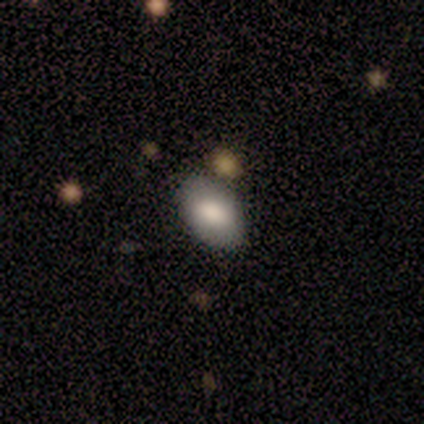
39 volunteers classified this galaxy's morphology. Smooth or featured? 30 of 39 (77%) said smooth. How rounded? 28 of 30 (93%) said in between. Merging? 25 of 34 (74%) said none.